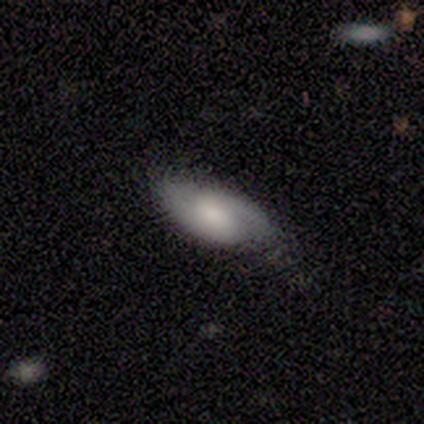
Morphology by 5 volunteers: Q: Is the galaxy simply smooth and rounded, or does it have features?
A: featured or disk — 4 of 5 (80%).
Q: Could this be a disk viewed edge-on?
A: no — 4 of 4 (100%).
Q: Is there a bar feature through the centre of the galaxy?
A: no — 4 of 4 (100%).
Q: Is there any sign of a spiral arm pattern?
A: yes — 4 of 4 (100%).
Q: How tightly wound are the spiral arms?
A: medium — 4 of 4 (100%).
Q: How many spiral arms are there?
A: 2 — 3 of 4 (75%).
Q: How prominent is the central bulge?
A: moderate — 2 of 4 (50%).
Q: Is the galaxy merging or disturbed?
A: none — 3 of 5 (60%).